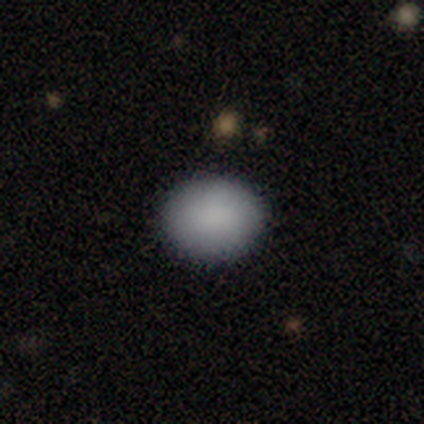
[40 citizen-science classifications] A smooth galaxy with no disk features (88%) that is round (49%, tied with in between). Merging: none (92%).